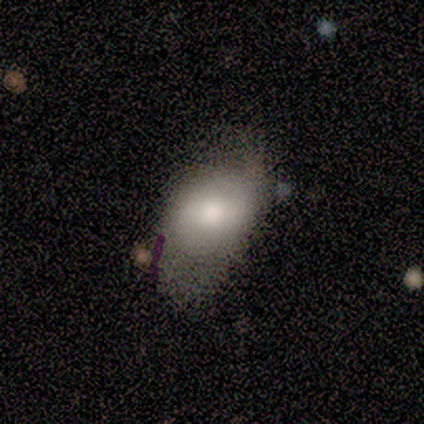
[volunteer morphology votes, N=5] Smooth or featured? 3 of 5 (60%) said smooth. How rounded? 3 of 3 (100%) said in between. Merging? 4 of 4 (100%) said none.